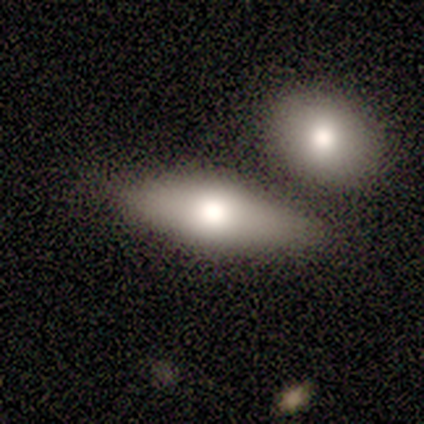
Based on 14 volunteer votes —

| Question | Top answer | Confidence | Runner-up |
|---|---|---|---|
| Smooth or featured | smooth | 57% | featured or disk (43%) |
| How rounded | in between | 75% | cigar-shaped (25%) |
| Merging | none | 57% | minor disturbance (21%) |